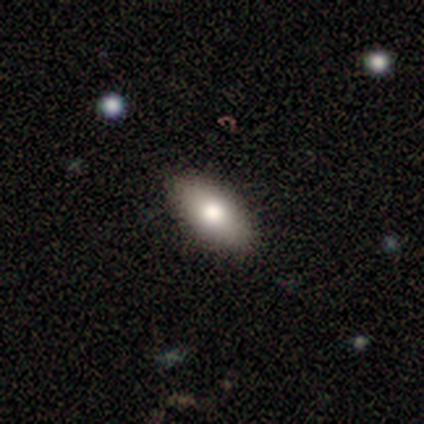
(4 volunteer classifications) This appears to be a smooth galaxy with no disk features (75%) that is in between round and cigar-shaped (100%). Merging: none (75%).